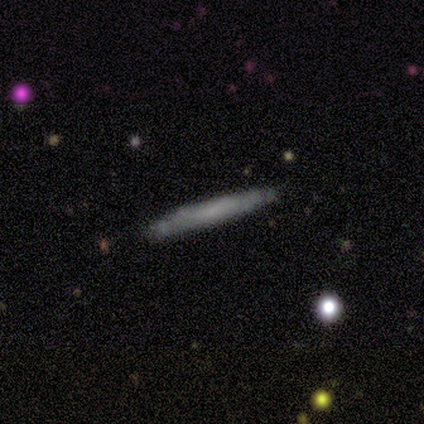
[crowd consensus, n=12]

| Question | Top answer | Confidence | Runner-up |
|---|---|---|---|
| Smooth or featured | smooth | 67% | featured or disk (25%) |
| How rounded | cigar-shaped | 100% | — |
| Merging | none | 100% | — |